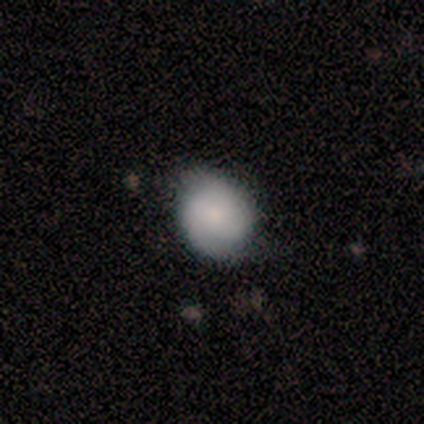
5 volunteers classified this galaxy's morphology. Smooth or featured?
  - smooth: 100% *
  - featured or disk: 0%
  - star or artifact: 0%
How rounded?
  - round: 80% *
  - in between: 20%
  - cigar-shaped: 0%
Merging?
  - none: 80% *
  - minor disturbance: 20%
  - major disturbance: 0%
  - merger: 0%